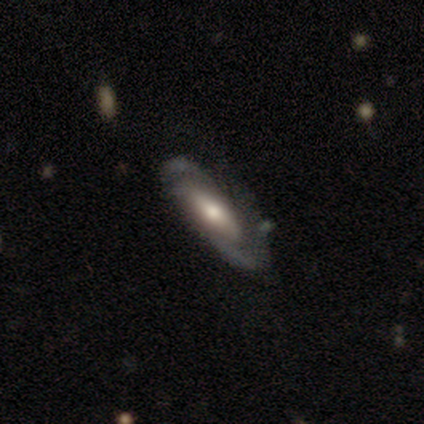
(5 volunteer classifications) Volunteers were most divided on "spiral winding": medium: 60%, tight: 40%, loose: 0%. More confident: smooth or featured — featured or disk (100%); edge-on disk — no (100%); spiral arms — yes (100%); spiral arm count — 2 (100%); bulge size — moderate (100%); bar — no (80%); merging — none (80%).